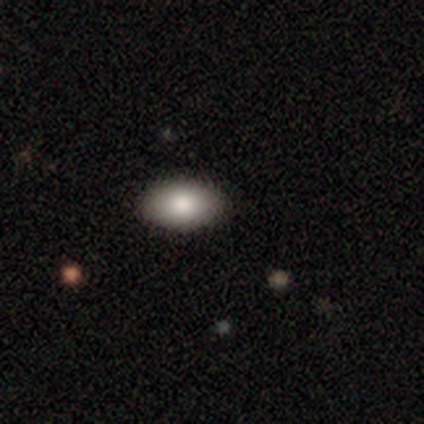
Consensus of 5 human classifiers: Morphology: type=smooth (80%); roundness=in between (100%); merging=none (100%).